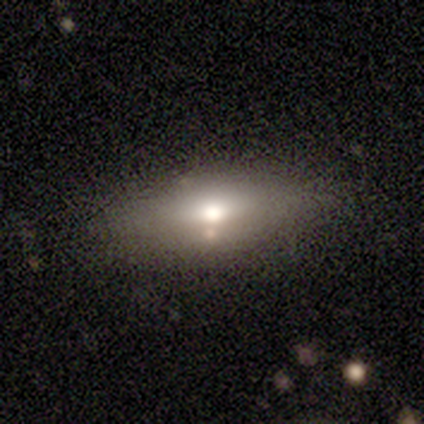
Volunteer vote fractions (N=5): This appears to be a smooth galaxy with no disk features (40%, tied with star or artifact) that is cigar-shaped (100%). Merging: none (67%).